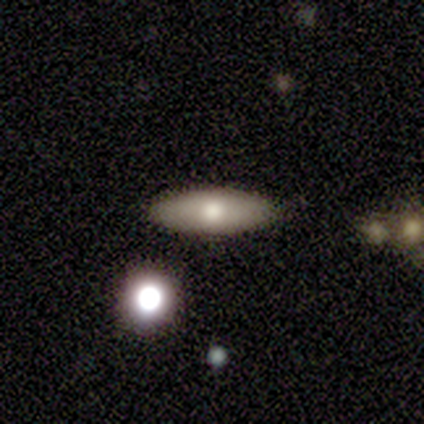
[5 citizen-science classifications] A smooth galaxy with no disk features (80%) that is in between round and cigar-shaped (75%). Merging: none (100%).